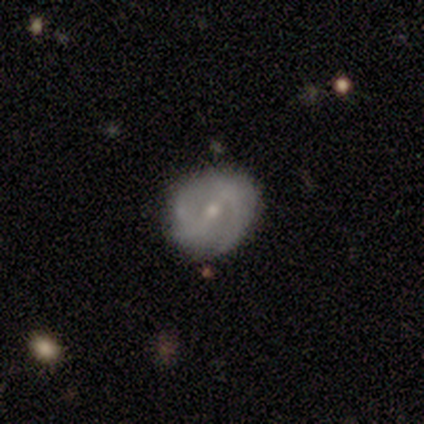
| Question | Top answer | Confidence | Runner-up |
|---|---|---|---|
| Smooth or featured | featured or disk | 67% | star or artifact (22%) |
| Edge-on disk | no | 100% | — |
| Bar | weak | 50% | tied: no (50%) |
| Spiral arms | yes | 83% | no (17%) |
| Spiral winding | loose | 60% | tight (40%) |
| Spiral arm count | can't tell | 60% | 2 (40%) |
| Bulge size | moderate | 50% | tied: small (50%) |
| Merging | none | 43% | tied: minor disturbance (43%) |